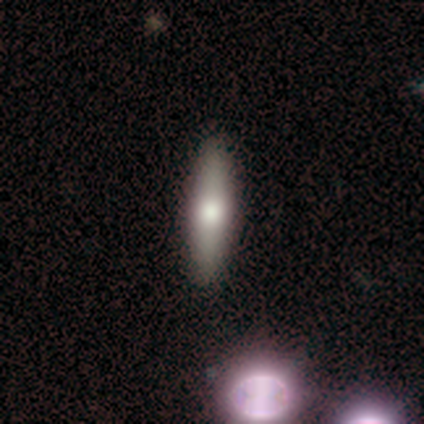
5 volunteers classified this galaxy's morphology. Smooth or featured? 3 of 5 (60%) said smooth. How rounded? 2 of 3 (67%) said cigar-shaped. Merging? 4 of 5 (80%) said none.